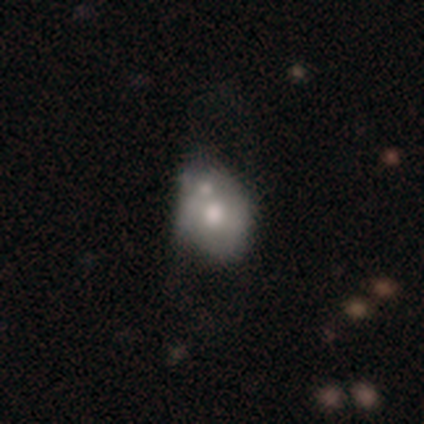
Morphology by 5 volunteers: smooth 40% (tied), featured or disk 40% (tied), star or artifact 20%. Down the decision tree: how rounded — round (100%); merging — major disturbance (50%, tied with merger).